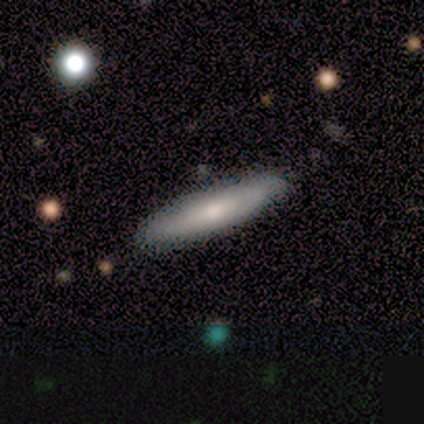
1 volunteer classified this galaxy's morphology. Q: Smooth or featured?
A: featured or disk (100%)
Q: Edge-on disk?
A: yes (100%)
Q: Edge-on bulge?
A: rounded (100%)
Q: Merging?
A: none (100%)